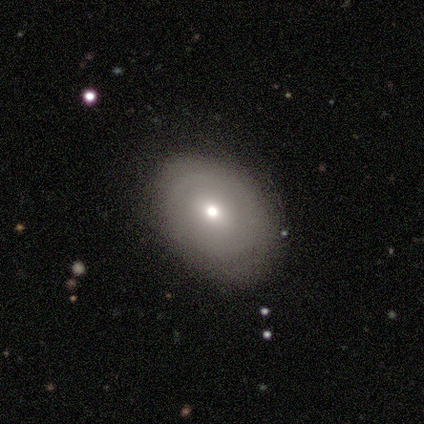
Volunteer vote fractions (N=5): A featured or disk galaxy (60%) with no bar (100%), no spiral arms (100%) and a small central bulge (67%). Merging: none (80%).